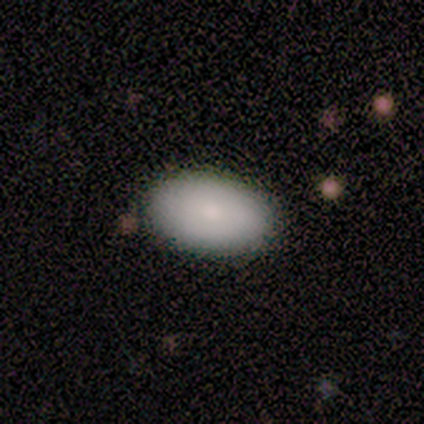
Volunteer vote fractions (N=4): This is possibly a smooth galaxy (50%). How rounded: clearly in between (100%). Merging: clearly none (100%).